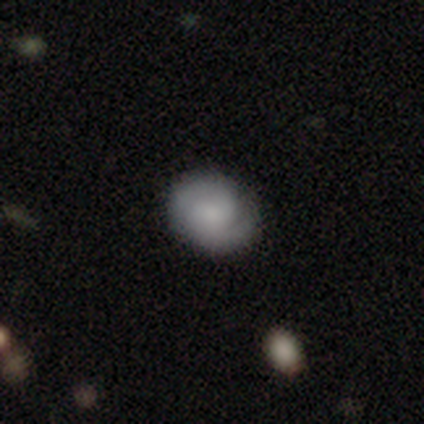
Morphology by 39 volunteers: type=featured or disk (51%); edge-on=no (95%); bar=no (84%); spiral arms=yes (100%); winding=tight (47%); arm count=2 (89%); bulge=none (37%); merging=none (88%).